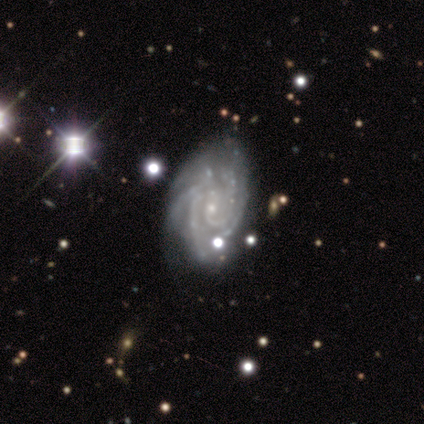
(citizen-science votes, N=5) Overall: featured or disk (100%). Edge-on disk: no (100%). Bar: no (60%; strong 20%). Spiral arms: yes (100%). Spiral arm count: more than 4 (40%; 2 20%). Spiral winding: medium (60%; tight 40%). Bulge size: small (80%). Merging: none (80%).